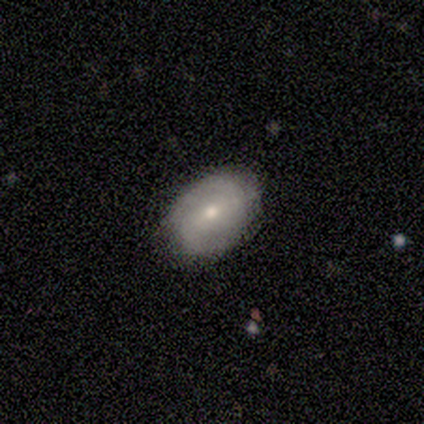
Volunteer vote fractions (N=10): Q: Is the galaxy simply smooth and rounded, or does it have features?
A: featured or disk — 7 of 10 (70%).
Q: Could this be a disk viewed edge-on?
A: no — 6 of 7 (86%).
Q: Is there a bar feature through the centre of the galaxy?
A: weak — 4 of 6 (67%).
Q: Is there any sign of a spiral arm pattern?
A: yes — 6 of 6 (100%).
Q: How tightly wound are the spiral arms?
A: tight — 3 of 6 (50%, tied with medium).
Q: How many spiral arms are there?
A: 2 — 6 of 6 (100%).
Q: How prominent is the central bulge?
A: moderate — 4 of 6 (67%).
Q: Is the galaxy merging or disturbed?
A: none — 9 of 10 (90%).